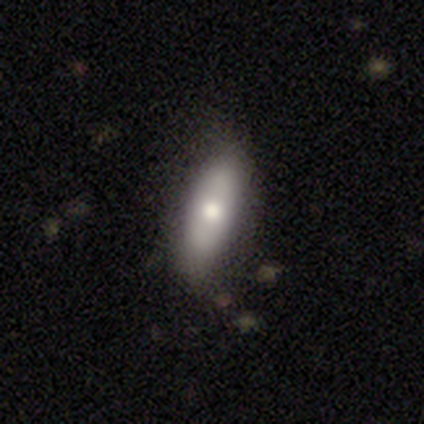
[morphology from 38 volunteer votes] type=smooth (74%); roundness=in between (61%); merging=none (84%).